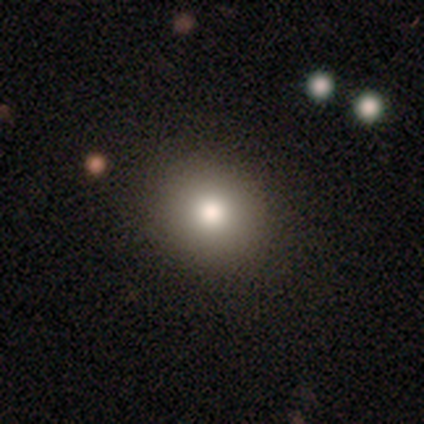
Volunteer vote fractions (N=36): Smooth or featured?
  - smooth: 81% *
  - star or artifact: 11%
  - featured or disk: 8%
How rounded?
  - round: 86% *
  - in between: 14%
  - cigar-shaped: 0%
Merging?
  - none: 88% *
  - major disturbance: 6%
  - minor disturbance: 3%
  - merger: 3%